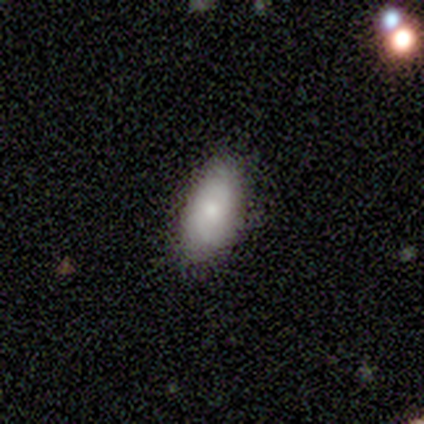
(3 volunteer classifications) A smooth galaxy with no disk features (100%) that is in between round and cigar-shaped (67%).

Vote fractions:
- Smooth or featured? smooth: 100% / featured or disk: 0% / star or artifact: 0%
- How rounded? in between: 67% / cigar-shaped: 33% / round: 0%
- Merging? none: 67% / merger: 33% / minor disturbance: 0% / major disturbance: 0%